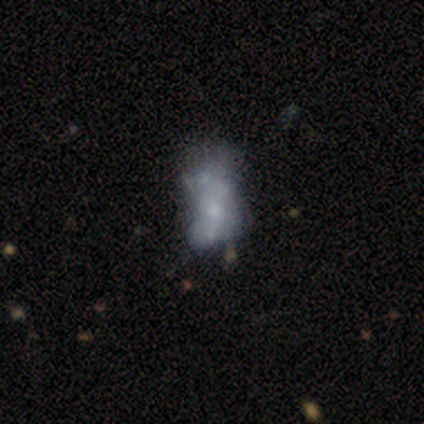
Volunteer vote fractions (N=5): smooth_or_featured: smooth (p=0.60) [alt: featured or disk p=0.40]
how_rounded: in between (p=1.00)
merging: minor disturbance (p=0.60) [alt: major disturbance p=0.40]